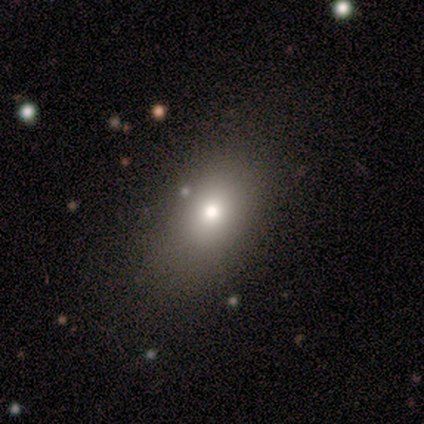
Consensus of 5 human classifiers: smooth_or_featured: smooth (p=0.80) [alt: featured or disk p=0.20]
how_rounded: in between (p=1.00)
merging: none (p=0.80) [alt: minor disturbance p=0.20]